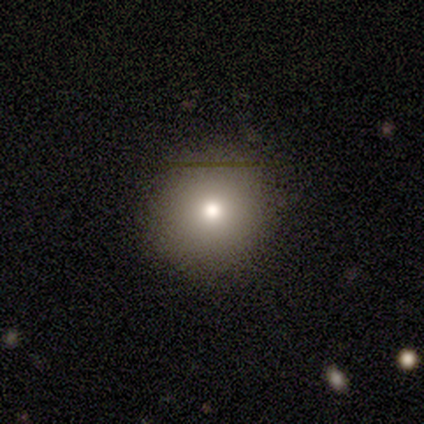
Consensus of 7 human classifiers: Smooth or featured: smooth — 71% (featured or disk — 14%)
How rounded: round — 100%
Merging: none — 100%